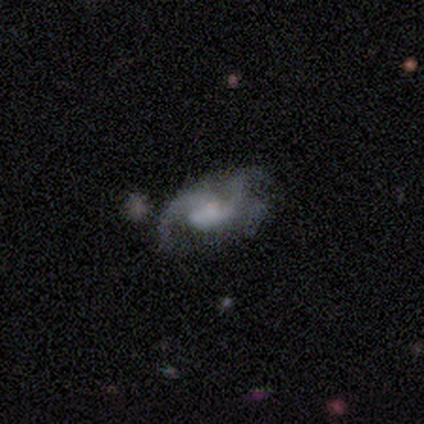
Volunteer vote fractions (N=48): smooth-or-featured: featured or disk: 75% | smooth: 19% | star or artifact: 6%
  disk-edge-on: no: 97% | yes: 3%
    bar: no: 63% | weak: 29% | strong: 9%
    has-spiral-arms: yes: 69% | no: 31%
      spiral-winding: loose: 50% | medium: 38% | tight: 12%
      spiral-arm-count: 2: 54% | 3: 29% | can't tell: 17% | 1: 0% | 4: 0% | more than 4: 0%
    bulge-size: none: 46% | moderate: 23% | small: 20% | large: 9% | dominant: 3%
  merging: major disturbance: 40% | minor disturbance: 29% | none: 20% | merger: 11%